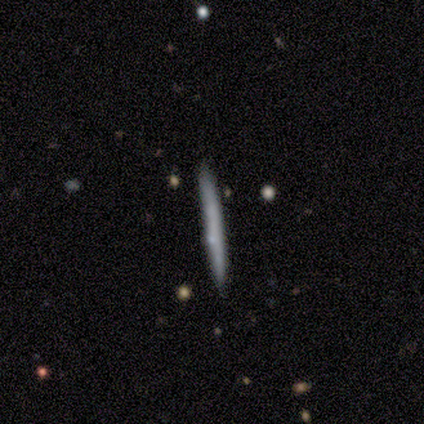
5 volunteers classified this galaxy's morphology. A smooth galaxy with no disk features (60%) that is cigar-shaped (100%). Merging: none (100%).